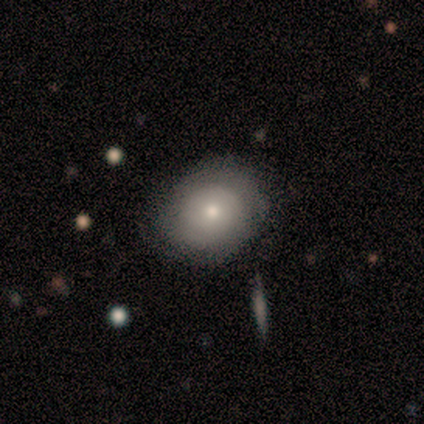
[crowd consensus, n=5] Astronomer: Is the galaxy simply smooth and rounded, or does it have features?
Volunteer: smooth — 100%.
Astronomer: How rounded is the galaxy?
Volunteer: round — 100%.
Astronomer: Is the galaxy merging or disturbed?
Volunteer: none — 80%.